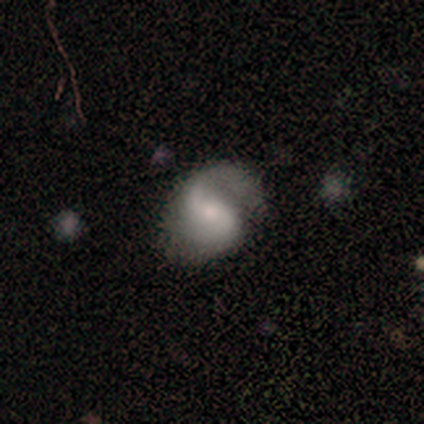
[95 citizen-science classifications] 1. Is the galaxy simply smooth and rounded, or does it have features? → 76% featured or disk, 19% smooth, 5% star or artifact.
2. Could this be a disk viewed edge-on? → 100% no, 0% yes.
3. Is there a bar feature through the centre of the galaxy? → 47% weak, 26% strong, 26% no.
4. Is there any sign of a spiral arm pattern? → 96% yes, 4% no.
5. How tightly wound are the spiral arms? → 58% medium, 35% loose, 7% tight.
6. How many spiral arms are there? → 74% 2, 20% 1, 6% can't tell, 0% 3, 0% 4, 0% more than 4.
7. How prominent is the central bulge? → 50% small, 39% moderate, 6% large, 6% none, 0% dominant.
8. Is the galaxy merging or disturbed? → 68% none, 16% minor disturbance, 14% major disturbance, 2% merger.